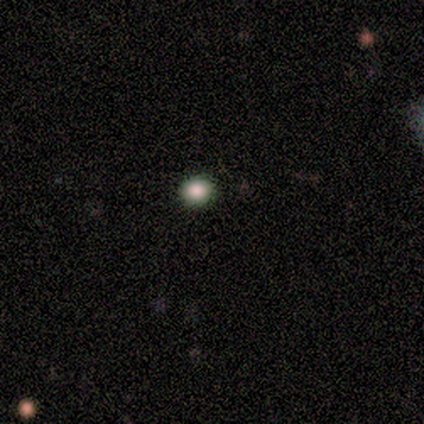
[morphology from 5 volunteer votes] Smooth or featured? smooth (80%)
How rounded? round (75%)
Merging? none (100%)